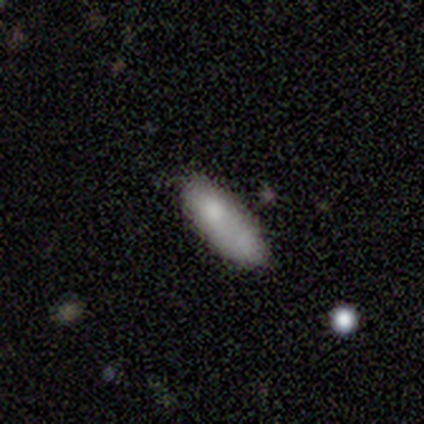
Smooth or featured: smooth — 100%
How rounded: cigar-shaped — 80% (in between — 20%)
Merging: none — 60% (minor disturbance — 20%)